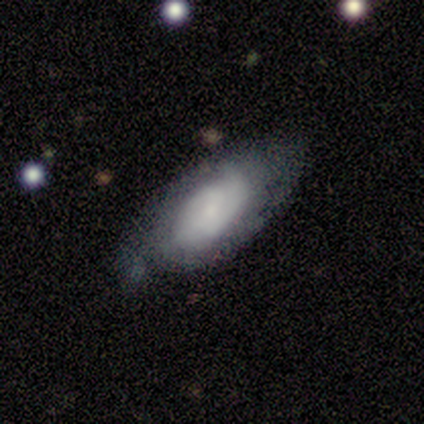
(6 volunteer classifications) Overall: smooth (50%, tied with featured or disk). How rounded: in between (100%). Merging: none (83%).